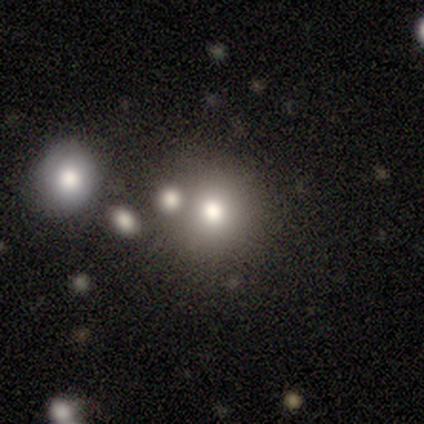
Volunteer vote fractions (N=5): Overall: star or artifact (60%; smooth 40%).